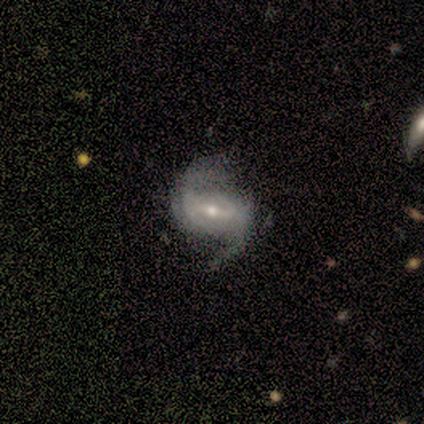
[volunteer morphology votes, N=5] smooth_or_featured: featured or disk (p=1.00)
disk_edge_on: no (p=1.00)
bar: strong (p=0.60) [alt: weak p=0.40]
has_spiral_arms: yes (p=1.00)
spiral_winding: loose (p=0.60) [alt: medium p=0.40]
spiral_arm_count: 2 (p=1.00)
bulge_size: small (p=1.00)
merging: none (p=0.40) [tied with: major disturbance p=0.40]